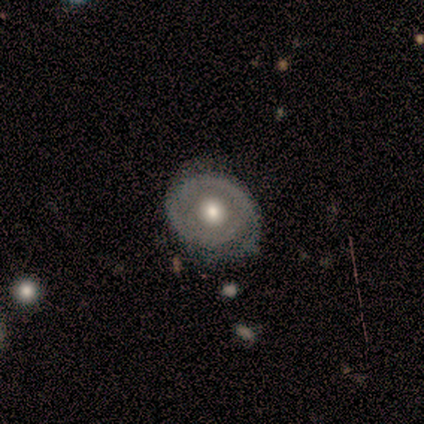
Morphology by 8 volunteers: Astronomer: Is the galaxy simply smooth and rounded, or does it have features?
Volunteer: featured or disk — 75%.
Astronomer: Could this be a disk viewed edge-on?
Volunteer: no — 83%.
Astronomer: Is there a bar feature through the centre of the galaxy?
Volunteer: no — 100%.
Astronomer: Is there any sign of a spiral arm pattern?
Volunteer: yes — 60% (runner-up: no, 40%).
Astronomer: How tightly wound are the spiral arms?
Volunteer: tight — 67%.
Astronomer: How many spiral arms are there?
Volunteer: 2 — 67%.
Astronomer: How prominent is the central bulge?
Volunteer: moderate — 100%.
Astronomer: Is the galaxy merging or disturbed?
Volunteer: none — 43% (runner-up: minor disturbance, 29%).